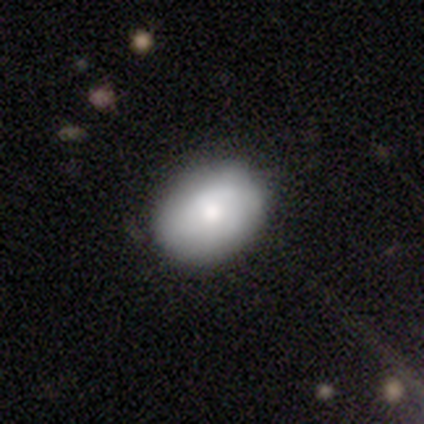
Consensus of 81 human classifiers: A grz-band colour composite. It shows a smooth galaxy with no disk features (77%) that is in between round and cigar-shaped (53%). Merging: none (45%).